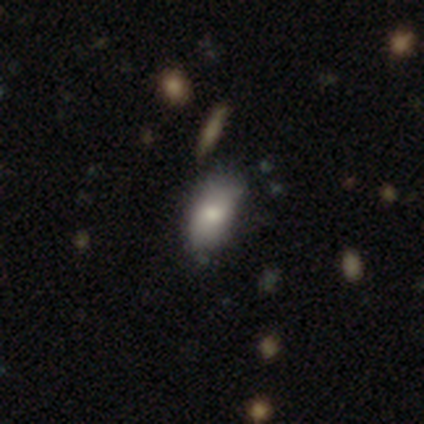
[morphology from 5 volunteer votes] smooth_or_featured: smooth (p=1.00)
how_rounded: in between (p=1.00)
merging: none (p=0.80) [alt: minor disturbance p=0.20]